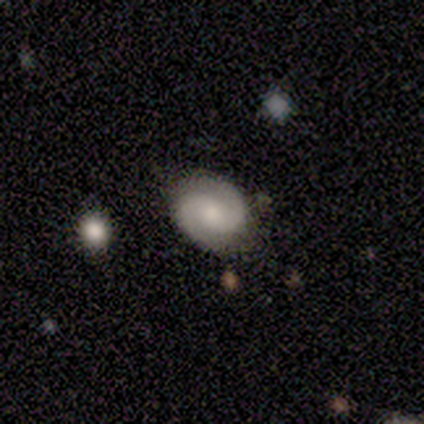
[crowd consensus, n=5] Smooth or featured? featured or disk (80%)
Edge-on disk? no (100%)
Bar? no (50%)
Spiral arms? yes (100%)
Spiral winding? tight (50%, tied with loose)
Spiral arm count? 2 (100%)
Bulge size? small (75%)
Merging? none (100%)